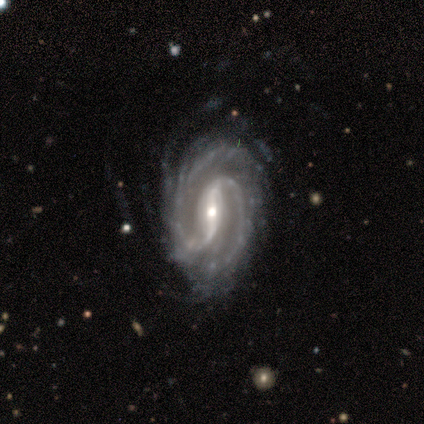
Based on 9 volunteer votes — Morphology: type=featured or disk (100%); edge-on=no (89%); bar=strong (75%); spiral arms=yes (100%); winding=tight (38%, tied with medium); arm count=2 (88%); bulge=moderate (62%); merging=none (67%).